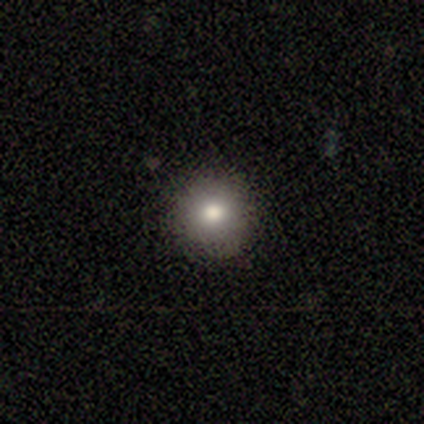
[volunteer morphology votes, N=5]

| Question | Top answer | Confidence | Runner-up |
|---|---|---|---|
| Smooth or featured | smooth | 80% | featured or disk (20%) |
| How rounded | round | 100% | — |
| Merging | none | 80% | minor disturbance (20%) |